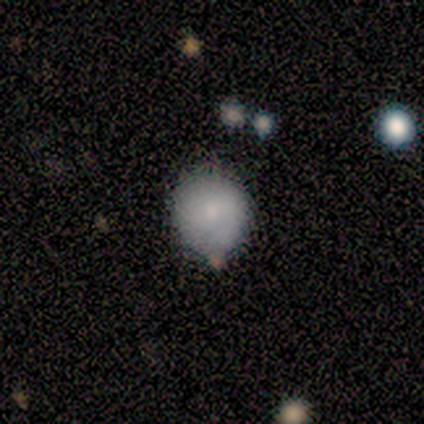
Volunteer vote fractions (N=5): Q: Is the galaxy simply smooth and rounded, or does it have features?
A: smooth — 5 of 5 (100%).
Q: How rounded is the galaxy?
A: round — 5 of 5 (100%).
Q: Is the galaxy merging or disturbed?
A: none — 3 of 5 (60%).